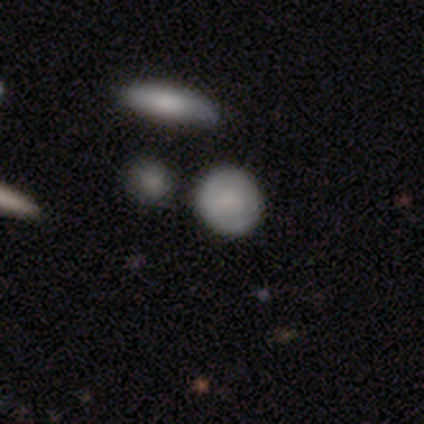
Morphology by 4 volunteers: A smooth galaxy with no disk features (100%) that is round (75%).

Vote fractions:
- Smooth or featured? smooth: 100% / featured or disk: 0% / star or artifact: 0%
- How rounded? round: 75% / in between: 25% / cigar-shaped: 0%
- Merging? none: 100% / minor disturbance: 0% / major disturbance: 0% / merger: 0%